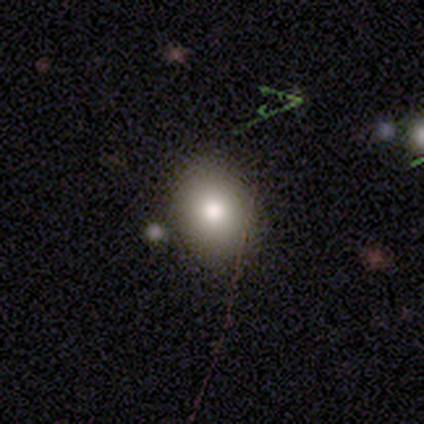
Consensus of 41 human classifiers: Smooth or featured? 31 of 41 (76%) said smooth. How rounded? 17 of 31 (55%) said in between. Merging? 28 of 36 (78%) said none.